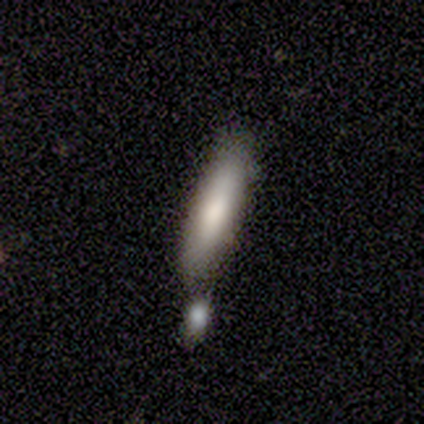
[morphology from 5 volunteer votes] Volunteers were most divided on "how rounded" (2-way tie): in between: 50%, cigar-shaped: 50%, round: 0%. More confident: smooth or featured — smooth (80%); merging — merger (50%).